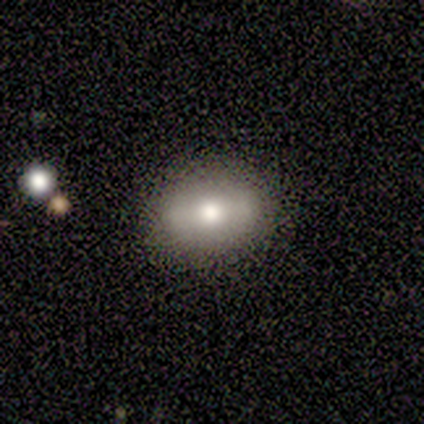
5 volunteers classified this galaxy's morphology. smooth-or-featured: featured or disk: 60% | smooth: 40% | star or artifact: 0%
  disk-edge-on: no: 100% | yes: 0%
    bar: no: 67% | strong: 33% | weak: 0%
    has-spiral-arms: no: 100% | yes: 0%
    bulge-size: dominant: 33% (tied) | large: 33% (tied) | moderate: 33% (tied) | small: 0% | none: 0%
  merging: none: 80% | minor disturbance: 20% | major disturbance: 0% | merger: 0%